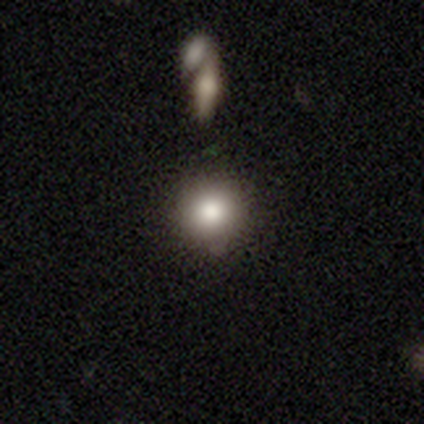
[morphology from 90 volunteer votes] smooth-or-featured: smooth: 79% | featured or disk: 11% | star or artifact: 10%
  how-rounded: round: 97% | in between: 3% | cigar-shaped: 0%
  merging: none: 80% | minor disturbance: 12% | merger: 5% | major disturbance: 2%